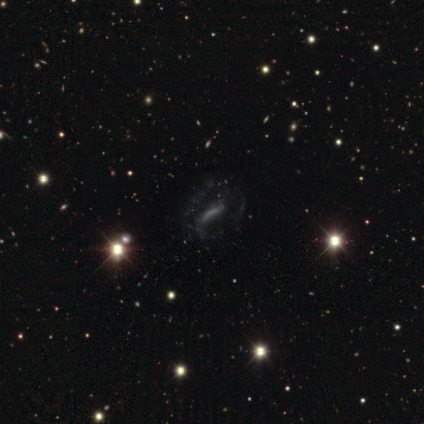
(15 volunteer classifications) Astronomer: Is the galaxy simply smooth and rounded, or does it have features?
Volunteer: star or artifact — 47% (runner-up: featured or disk, 33%).